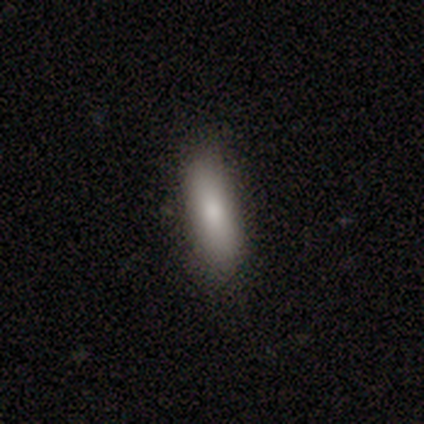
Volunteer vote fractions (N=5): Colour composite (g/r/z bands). It shows a smooth galaxy with no disk features (100%) that is cigar-shaped (80%). Merging: none (80%).